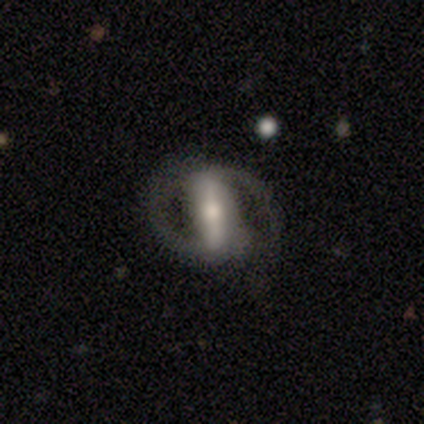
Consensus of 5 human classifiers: Q: Smooth or featured?
A: featured or disk (80%); runner-up: smooth (20%)
Q: Edge-on disk?
A: no (100%)
Q: Bar?
A: strong (75%); runner-up: weak (25%)
Q: Spiral arms?
A: yes (75%); runner-up: no (25%)
Q: Spiral winding?
A: medium (67%); runner-up: loose (33%)
Q: Spiral arm count?
A: 2 (100%)
Q: Bulge size?
A: moderate (75%); runner-up: small (25%)
Q: Merging?
A: minor disturbance (60%); runner-up: none (20%)